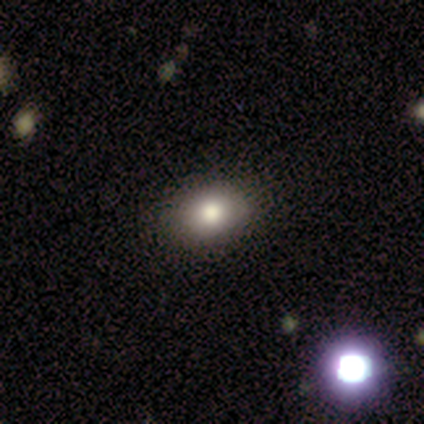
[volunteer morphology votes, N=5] Smooth or featured? 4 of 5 (80%) said smooth. How rounded? 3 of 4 (75%) said in between. Merging? 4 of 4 (100%) said none.